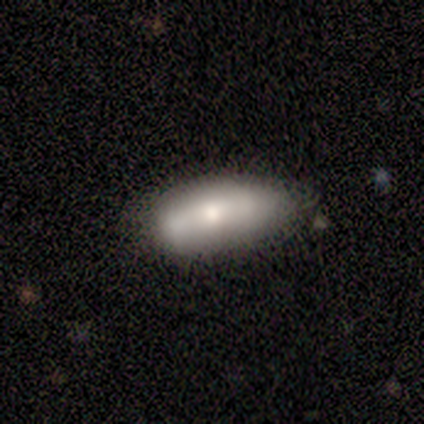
This is likely a smooth galaxy (60%). How rounded: likely in between (67%). Merging: likely minor disturbance (60%).